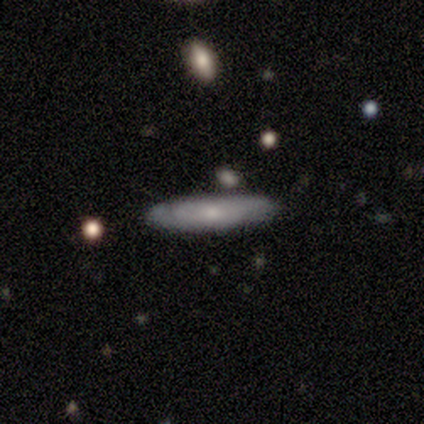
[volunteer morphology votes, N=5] Overall: smooth (60%; featured or disk 40%). How rounded: cigar-shaped (67%; in between 33%). Merging: none (80%).